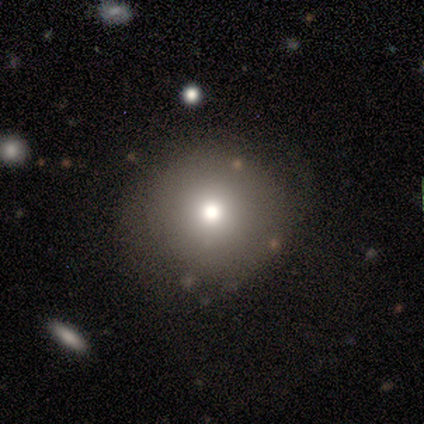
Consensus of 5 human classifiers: Smooth or featured? 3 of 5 (60%) said smooth. How rounded? 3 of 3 (100%) said round. Merging? 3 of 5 (60%) said none.